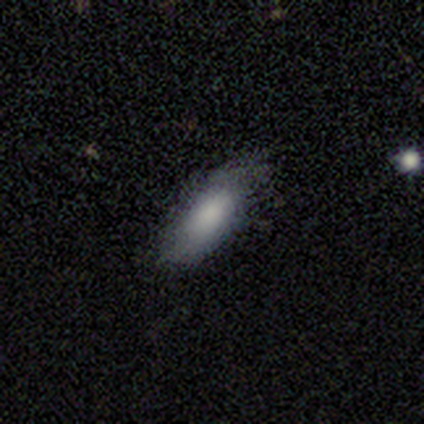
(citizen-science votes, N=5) Smooth or featured: smooth — 80% (star or artifact — 20%)
How rounded: in between — 100%
Merging: none — 50% (tied with minor disturbance — 50%)